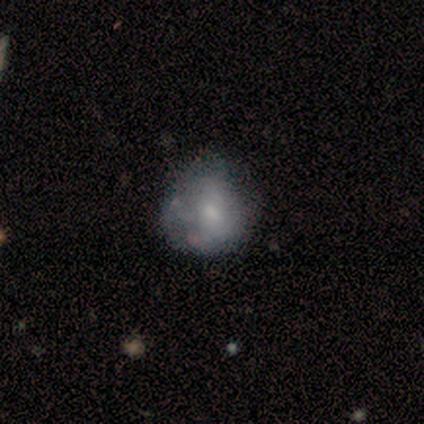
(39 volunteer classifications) Smooth or featured? smooth (64%)
How rounded? round (68%)
Merging? none (41%)